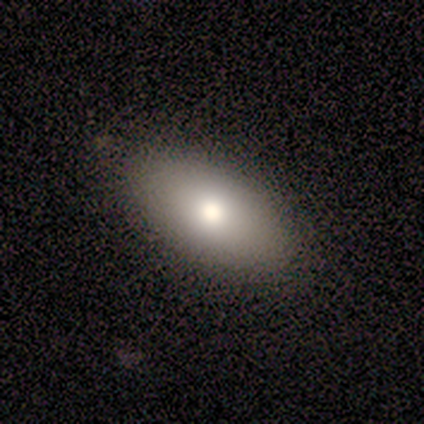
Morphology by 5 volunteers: This is likely a smooth galaxy (60%). How rounded: likely in between (67%). Merging: clearly none (100%).